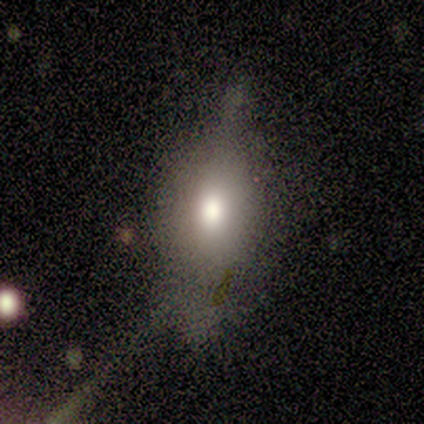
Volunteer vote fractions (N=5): Q: Smooth or featured?
A: smooth (60%); runner-up: featured or disk (20%)
Q: How rounded?
A: in between (100%)
Q: Merging?
A: none (50%); runner-up: minor disturbance (25%)